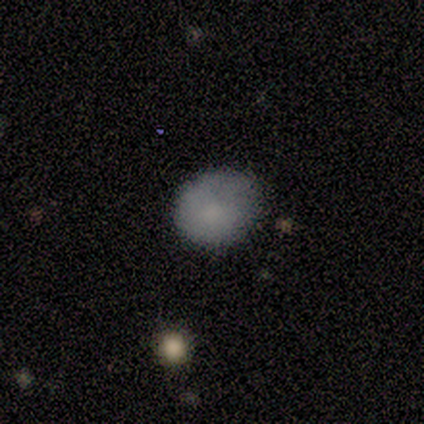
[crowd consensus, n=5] This is clearly a smooth galaxy (100%). How rounded: likely in between (60%). Merging: marginally none (40%, tied with minor disturbance).